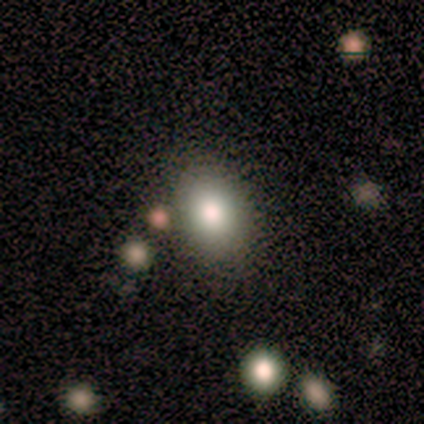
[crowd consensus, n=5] Smooth or featured?
  - smooth: 60% *
  - featured or disk: 20%
  - star or artifact: 20%
How rounded?
  - in between: 100% *
  - round: 0%
  - cigar-shaped: 0%
Merging?
  - none: 75% *
  - minor disturbance: 25%
  - major disturbance: 0%
  - merger: 0%